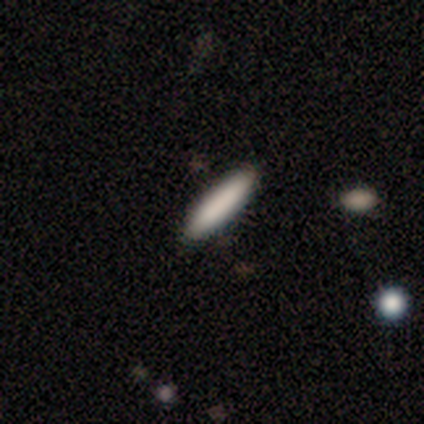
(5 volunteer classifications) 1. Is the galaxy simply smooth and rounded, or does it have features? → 60% smooth, 20% featured or disk, 20% star or artifact.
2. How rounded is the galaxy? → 100% cigar-shaped, 0% round, 0% in between.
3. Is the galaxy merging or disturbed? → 100% none, 0% minor disturbance, 0% major disturbance, 0% merger.